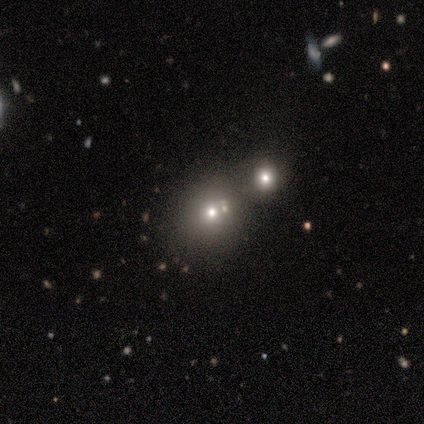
Morphology: type=smooth (75%); roundness=round (100%); merging=merger (67%).